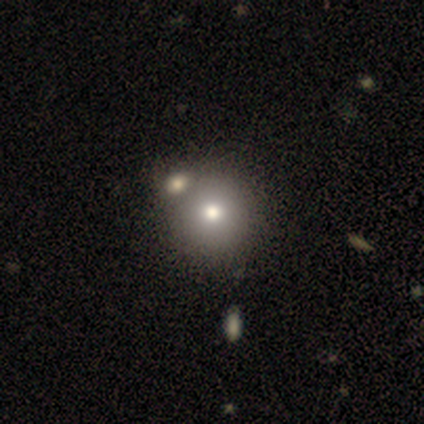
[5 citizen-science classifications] smooth_or_featured: smooth (p=0.60) [alt: featured or disk p=0.40]
how_rounded: round (p=0.67) [alt: in between p=0.33]
merging: none (p=0.60) [alt: merger p=0.40]